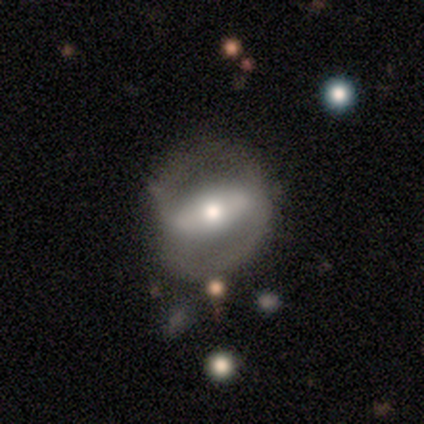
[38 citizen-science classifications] Volunteers were most divided on "spiral winding": medium: 54%, loose: 31%, tight: 15%. More confident: spiral arm count — 2 (100%); edge-on disk — no (95%); bar — strong (67%); merging — none (65%); spiral arms — yes (62%); bulge size — moderate (62%); smooth or featured — featured or disk (58%).